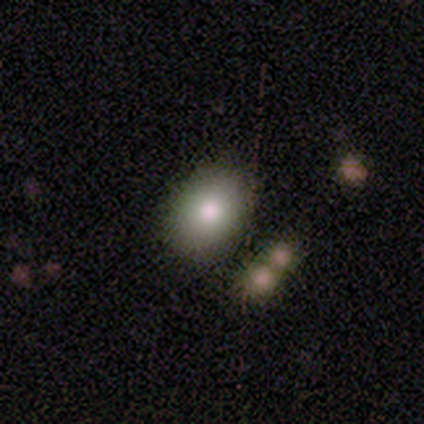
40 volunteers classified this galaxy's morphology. A smooth galaxy with no disk features (82%) that is in between round and cigar-shaped (73%).

Vote fractions:
- Smooth or featured? smooth: 82% / star or artifact: 12% / featured or disk: 5%
- How rounded? in between: 73% / round: 24% / cigar-shaped: 3%
- Merging? none: 83% / minor disturbance: 11% / major disturbance: 3% / merger: 3%